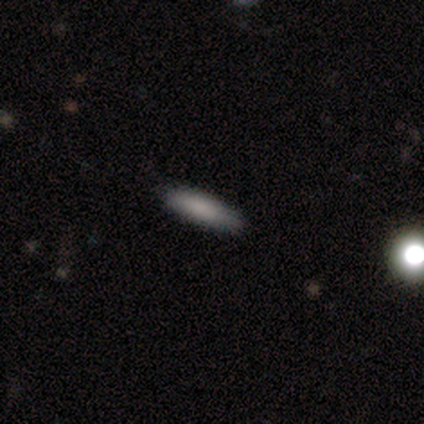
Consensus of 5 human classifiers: Smooth or featured? 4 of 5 (80%) said smooth. How rounded? 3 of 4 (75%) said cigar-shaped. Merging? 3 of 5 (60%) said none.